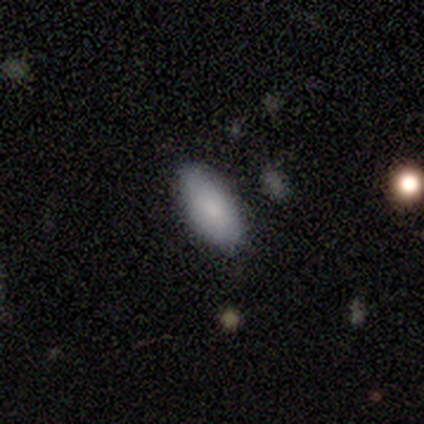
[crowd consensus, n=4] Smooth or featured? 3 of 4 (75%) said smooth. How rounded? 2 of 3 (67%) said in between. Merging? 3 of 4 (75%) said none.